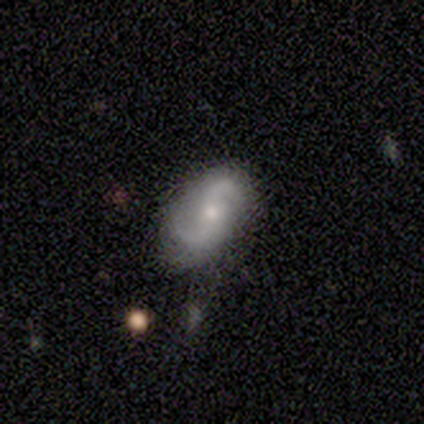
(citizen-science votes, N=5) Morphology: type=smooth (40%, tied with featured or disk); roundness=in between (100%); merging=none (50%, tied with minor disturbance).